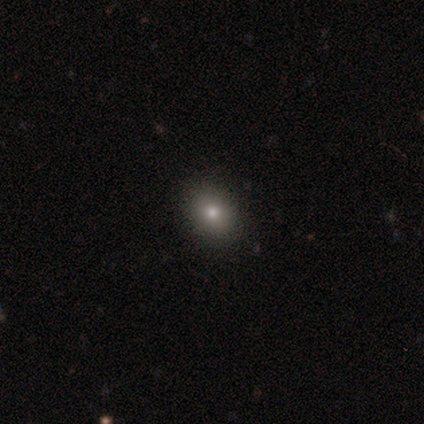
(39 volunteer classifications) Morphology: type=smooth (82%); roundness=round (59%); merging=none (86%).